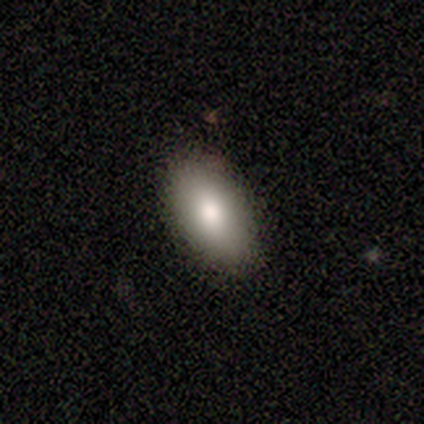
A smooth galaxy with no disk features (100%) that is in between round and cigar-shaped (80%).

Vote fractions:
- Smooth or featured? smooth: 100% / featured or disk: 0% / star or artifact: 0%
- How rounded? in between: 80% / round: 20% / cigar-shaped: 0%
- Merging? none: 80% / minor disturbance: 20% / major disturbance: 0% / merger: 0%